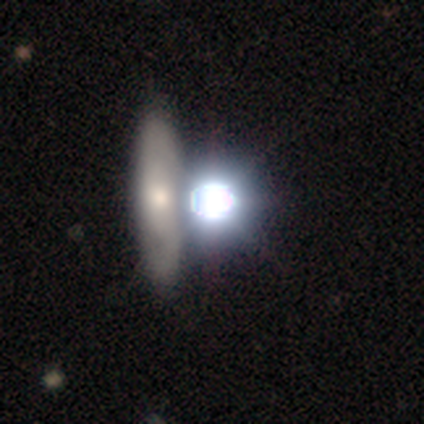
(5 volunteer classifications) Q: Smooth or featured?
A: star or artifact (60%); runner-up: smooth (40%)